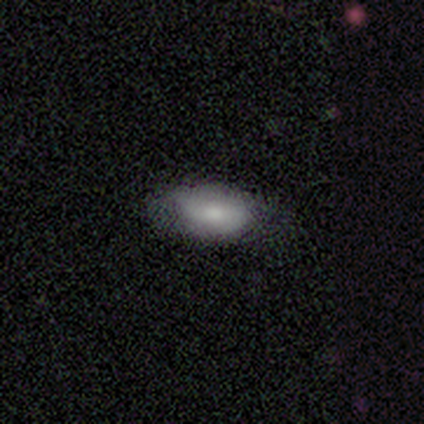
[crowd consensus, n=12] This is clearly a smooth galaxy (83%). How rounded: clearly in between (90%). Merging: likely none (73%).